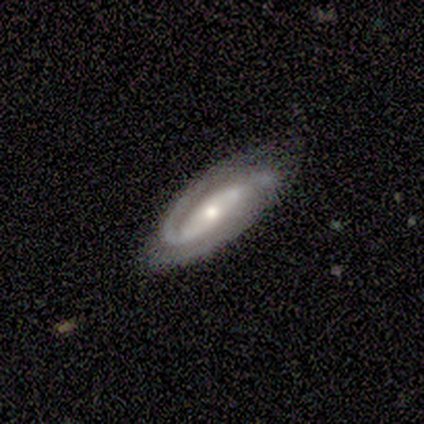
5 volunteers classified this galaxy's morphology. type=featured or disk (100%); edge-on=no (80%); bar=strong (50%, tied with no); spiral arms=yes (100%); winding=tight (75%); arm count=2 (100%); bulge=moderate (50%, tied with small); merging=none (100%).